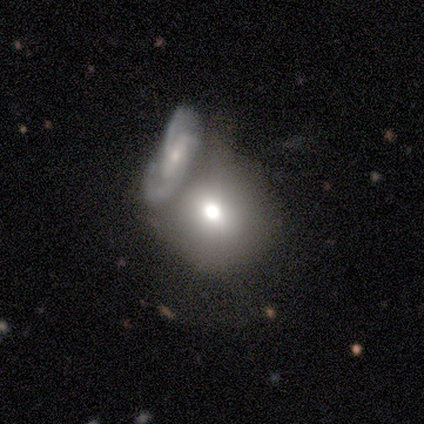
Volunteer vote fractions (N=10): Smooth or featured: smooth — 80% (featured or disk — 10%)
How rounded: round — 62% (in between — 38%)
Merging: merger — 56% (none — 22%)